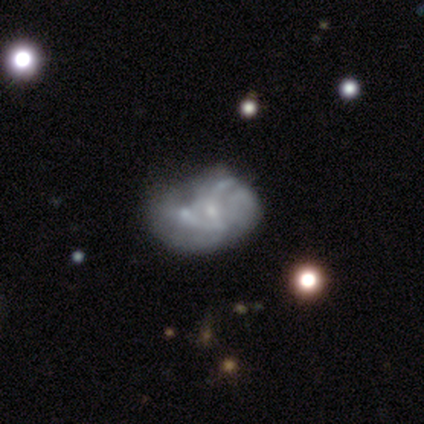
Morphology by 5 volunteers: Q: Smooth or featured?
A: featured or disk (80%); runner-up: smooth (20%)
Q: Edge-on disk?
A: no (100%)
Q: Bar?
A: no (100%)
Q: Spiral arms?
A: yes (50%); tied with: no (50%)
Q: Spiral winding?
A: tight (50%); tied with: medium (50%)
Q: Spiral arm count?
A: can't tell (100%)
Q: Bulge size?
A: none (50%); runner-up: moderate (25%)
Q: Merging?
A: minor disturbance (60%); runner-up: major disturbance (20%)